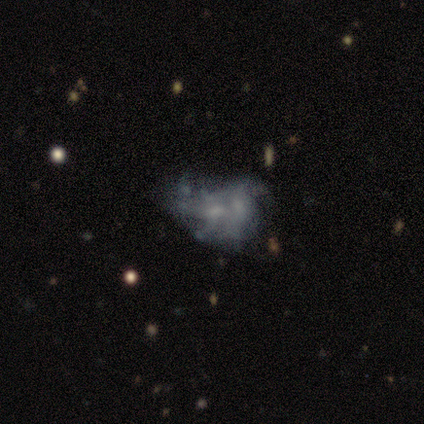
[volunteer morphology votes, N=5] This appears to be a featured or disk galaxy (60%) with no bar (67%), medium (67%) spiral arms (100%) and a small central bulge (67%). Merging: merger (100%).